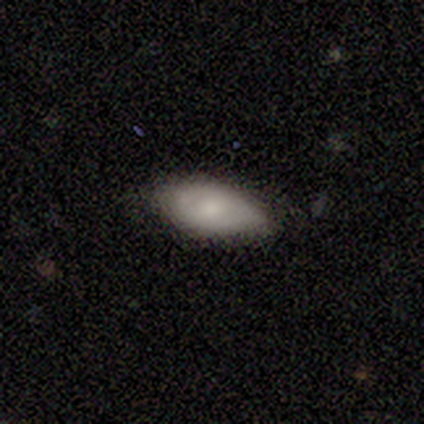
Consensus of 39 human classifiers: Smooth or featured?
  - smooth: 62% *
  - featured or disk: 31%
  - star or artifact: 8%
How rounded?
  - in between: 100% *
  - round: 0%
  - cigar-shaped: 0%
Merging?
  - none: 75% *
  - minor disturbance: 25%
  - major disturbance: 0%
  - merger: 0%